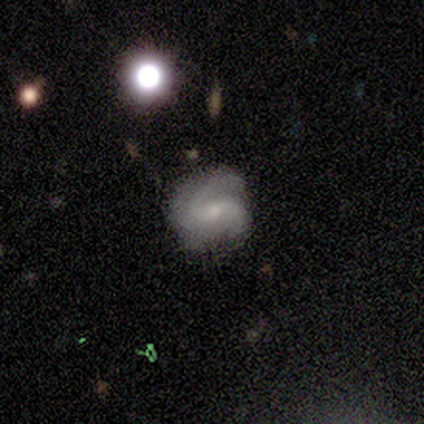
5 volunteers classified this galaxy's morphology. Q: Smooth or featured?
A: featured or disk (100%)
Q: Edge-on disk?
A: no (100%)
Q: Bar?
A: weak (60%); runner-up: strong (20%)
Q: Spiral arms?
A: yes (100%)
Q: Spiral winding?
A: medium (60%); runner-up: tight (20%)
Q: Spiral arm count?
A: 2 (60%); runner-up: 3 (40%)
Q: Bulge size?
A: small (80%); runner-up: moderate (20%)
Q: Merging?
A: none (100%)